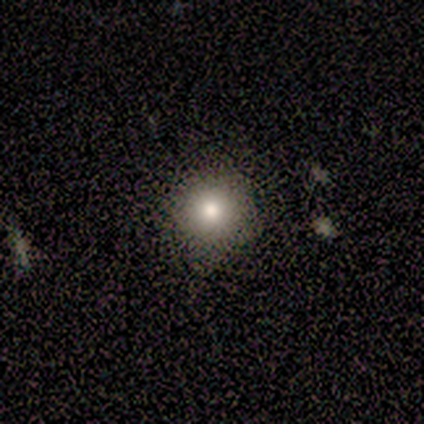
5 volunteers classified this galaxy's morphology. This appears to be a smooth galaxy with no disk features (80%) that is round (100%). Merging: none (80%).